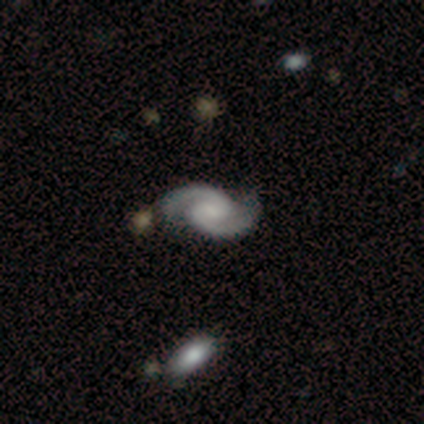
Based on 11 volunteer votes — smooth-or-featured: featured or disk: 100% | smooth: 0% | star or artifact: 0%
  disk-edge-on: no: 100% | yes: 0%
    bar: no: 73% | weak: 27% | strong: 0%
    has-spiral-arms: yes: 100% | no: 0%
      spiral-winding: medium: 45% | loose: 36% | tight: 18%
      spiral-arm-count: 2: 100% | 1: 0% | 3: 0% | 4: 0% | more than 4: 0% | can't tell: 0%
    bulge-size: small: 45% (tied) | none: 45% (tied) | large: 9% | dominant: 0% | moderate: 0%
  merging: none: 91% | minor disturbance: 9% | major disturbance: 0% | merger: 0%